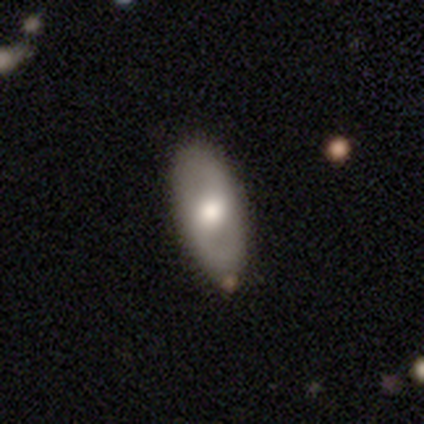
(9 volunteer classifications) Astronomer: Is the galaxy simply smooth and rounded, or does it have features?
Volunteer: smooth — 56% (runner-up: featured or disk, 44%).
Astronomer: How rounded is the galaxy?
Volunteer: in between — 60% (runner-up: cigar-shaped, 40%).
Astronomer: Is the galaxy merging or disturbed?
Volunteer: none — 56% (runner-up: minor disturbance, 44%).